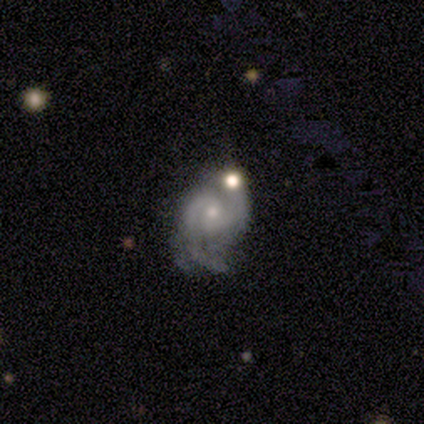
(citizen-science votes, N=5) smooth-or-featured: featured or disk: 80% | smooth: 20% | star or artifact: 0%
  disk-edge-on: no: 75% | yes: 25%
    bar: no: 100% | strong: 0% | weak: 0%
    has-spiral-arms: yes: 100% | no: 0%
      spiral-winding: tight: 33% (tied) | medium: 33% (tied) | loose: 33% (tied)
      spiral-arm-count: 3: 67% | 2: 33% | 1: 0% | 4: 0% | more than 4: 0% | can't tell: 0%
    bulge-size: small: 100% | dominant: 0% | large: 0% | moderate: 0% | none: 0%
  merging: none: 60% | minor disturbance: 20% | merger: 20% | major disturbance: 0%